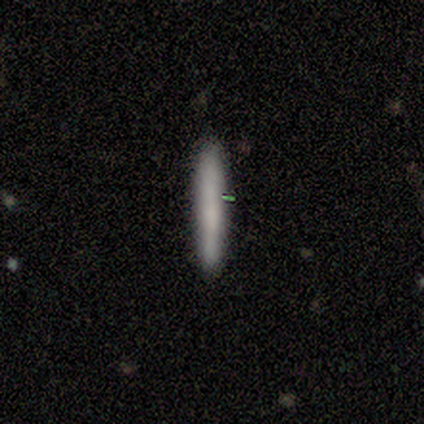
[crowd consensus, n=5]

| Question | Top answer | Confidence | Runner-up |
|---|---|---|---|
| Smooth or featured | smooth | 80% | star or artifact (20%) |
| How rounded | cigar-shaped | 100% | — |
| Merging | none | 100% | — |